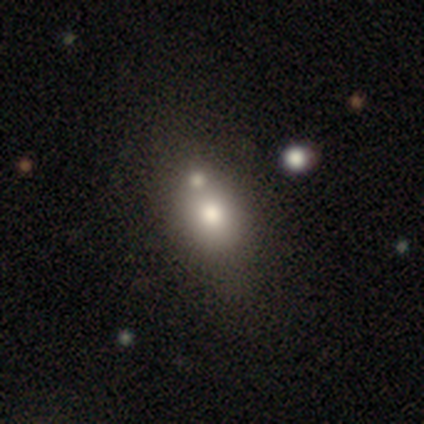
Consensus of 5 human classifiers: Morphology: type=smooth (60%); roundness=in between (100%); merging=none (60%).